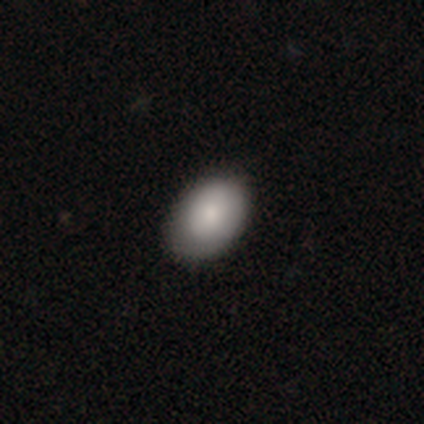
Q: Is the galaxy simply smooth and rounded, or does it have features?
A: smooth — 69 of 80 (86%).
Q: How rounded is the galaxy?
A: in between — 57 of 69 (83%).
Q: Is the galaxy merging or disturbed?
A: none — 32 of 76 (42%).